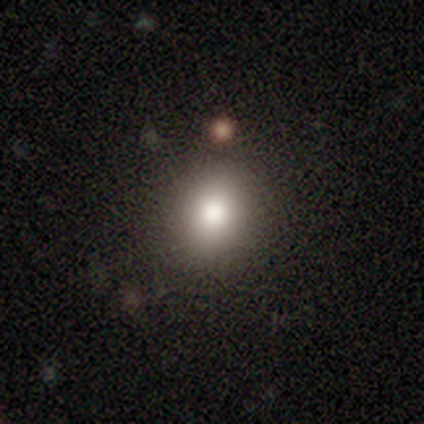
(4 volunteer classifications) Smooth or featured?
  - smooth: 75% *
  - star or artifact: 25%
  - featured or disk: 0%
How rounded?
  - round: 100% *
  - in between: 0%
  - cigar-shaped: 0%
Merging?
  - none: 100% *
  - minor disturbance: 0%
  - major disturbance: 0%
  - merger: 0%